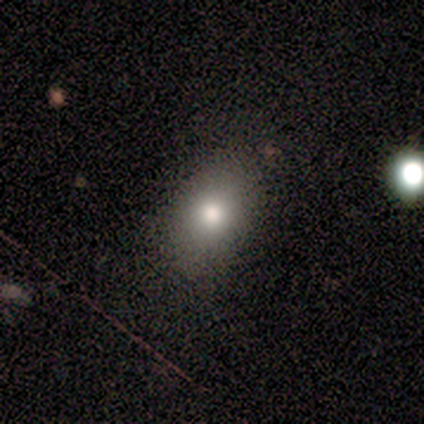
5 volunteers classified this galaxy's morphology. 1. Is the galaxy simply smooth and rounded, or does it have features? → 100% smooth, 0% featured or disk, 0% star or artifact.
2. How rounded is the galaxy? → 80% in between, 20% round, 0% cigar-shaped.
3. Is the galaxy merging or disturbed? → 80% none, 20% minor disturbance, 0% major disturbance, 0% merger.